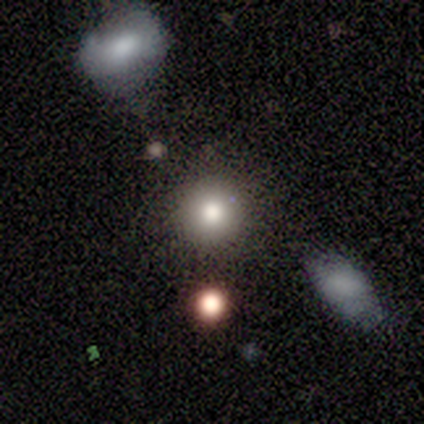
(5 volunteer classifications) Smooth or featured?
  - smooth: 80% *
  - star or artifact: 20%
  - featured or disk: 0%
How rounded?
  - round: 75% *
  - in between: 25%
  - cigar-shaped: 0%
Merging?
  - none: 100% *
  - minor disturbance: 0%
  - major disturbance: 0%
  - merger: 0%